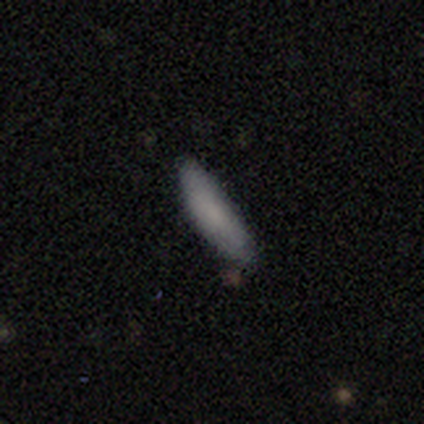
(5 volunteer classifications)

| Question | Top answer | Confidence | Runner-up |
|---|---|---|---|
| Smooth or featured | smooth | 80% | featured or disk (20%) |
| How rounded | in between | 50% | tied: cigar-shaped (50%) |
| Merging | none | 80% | minor disturbance (20%) |